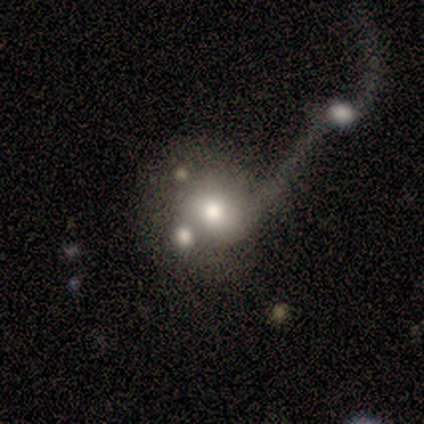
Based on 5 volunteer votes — featured or disk 60%, smooth 20%, star or artifact 20%. Down the decision tree: edge-on disk — no (100%); bar — no (67%); spiral arms — no (67%); bulge size — moderate (100%); merging — merger (100%).